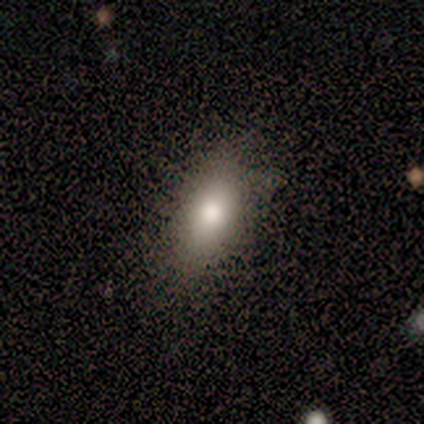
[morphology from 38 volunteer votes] A smooth galaxy with no disk features (76%) that is in between round and cigar-shaped (90%).

Vote fractions:
- Smooth or featured? smooth: 76% / star or artifact: 16% / featured or disk: 8%
- How rounded? in between: 90% / cigar-shaped: 7% / round: 3%
- Merging? none: 78% / minor disturbance: 12% / major disturbance: 9% / merger: 0%